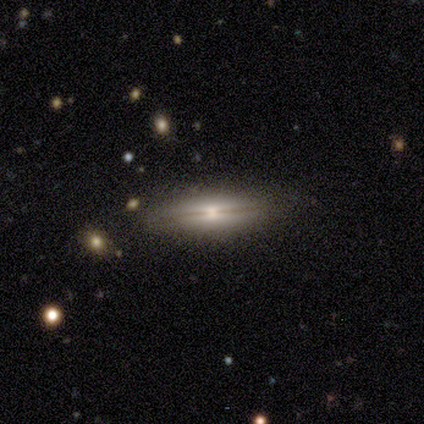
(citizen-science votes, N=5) Smooth or featured? 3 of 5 (60%) said featured or disk. Edge-on disk? 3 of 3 (100%) said yes. Edge-on bulge? 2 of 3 (67%) said rounded. Merging? 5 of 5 (100%) said none.